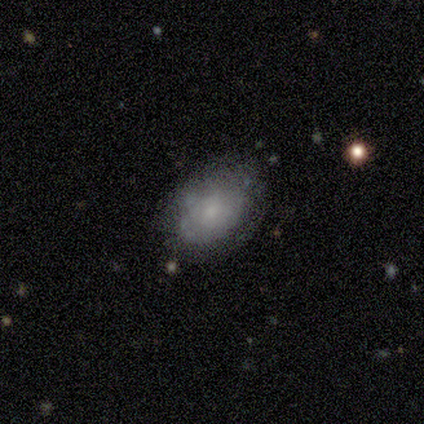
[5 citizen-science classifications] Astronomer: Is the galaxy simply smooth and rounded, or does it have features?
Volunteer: smooth — 100%.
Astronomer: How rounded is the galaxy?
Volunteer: in between — 100%.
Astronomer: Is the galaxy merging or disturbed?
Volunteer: none — 60%.